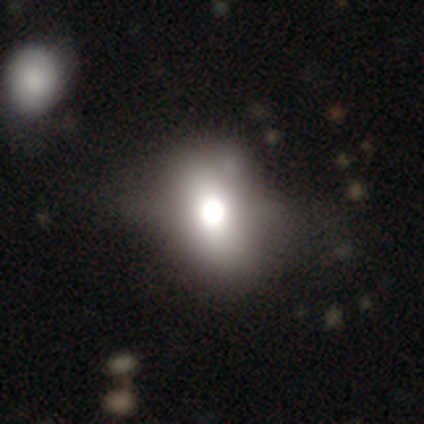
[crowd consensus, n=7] smooth-or-featured: smooth: 43% | featured or disk: 29% | star or artifact: 29%
  how-rounded: in between: 67% | round: 33% | cigar-shaped: 0%
  merging: none: 80% | minor disturbance: 20% | major disturbance: 0% | merger: 0%